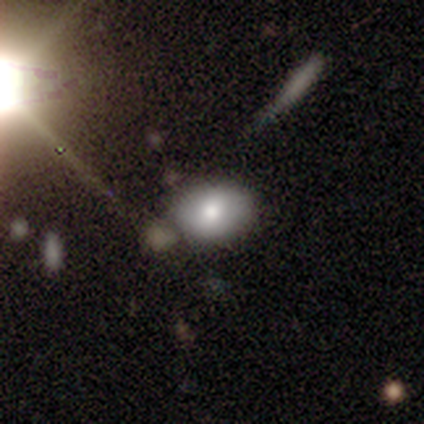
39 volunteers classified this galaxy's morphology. Smooth or featured?
  - smooth: 77% *
  - star or artifact: 13%
  - featured or disk: 10%
How rounded?
  - in between: 73% *
  - round: 27%
  - cigar-shaped: 0%
Merging?
  - none: 74% *
  - major disturbance: 12%
  - merger: 12%
  - minor disturbance: 3%